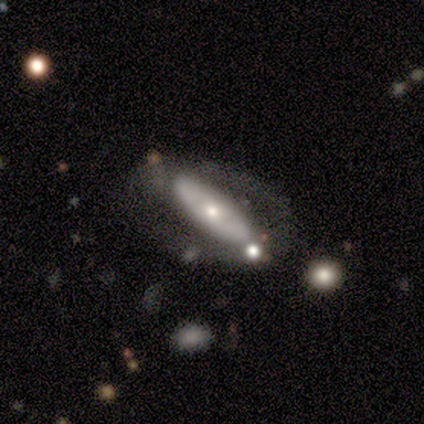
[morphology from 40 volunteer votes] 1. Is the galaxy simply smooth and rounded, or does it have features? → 57% featured or disk, 38% smooth, 5% star or artifact.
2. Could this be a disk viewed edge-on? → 65% no, 35% yes.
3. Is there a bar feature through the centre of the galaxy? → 60% no, 40% strong, 0% weak.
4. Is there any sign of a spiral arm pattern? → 73% no, 27% yes.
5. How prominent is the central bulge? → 47% moderate, 40% small, 7% dominant, 7% large, 0% none.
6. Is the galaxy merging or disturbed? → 58% none, 24% minor disturbance, 18% major disturbance, 0% merger.